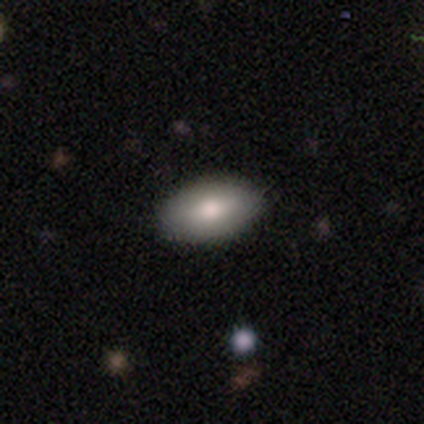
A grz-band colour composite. It shows a featured or disk galaxy (60%) with no bar (100%), no spiral arms (100%) and a moderate central bulge (67%). Merging: none (80%).